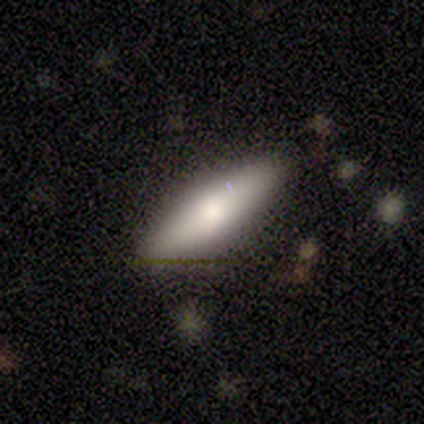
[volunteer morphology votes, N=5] This appears to be a smooth galaxy with no disk features (60%) that is cigar-shaped (67%). Merging: none (100%).